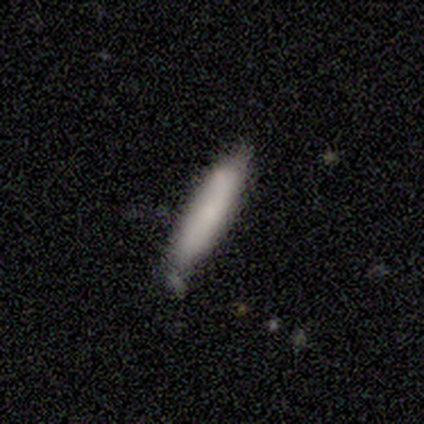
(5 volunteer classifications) This is likely a smooth galaxy (60%). How rounded: likely cigar-shaped (67%). Merging: likely none (75%).